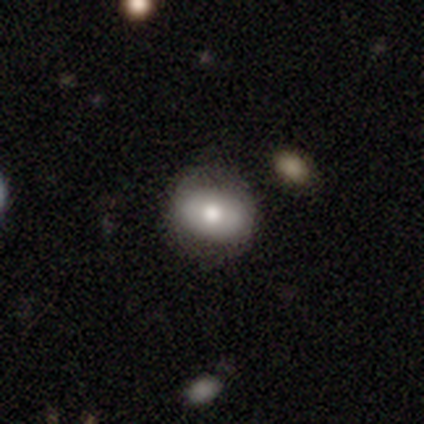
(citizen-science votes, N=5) smooth 100%, featured or disk 0%, star or artifact 0%. Down the decision tree: how rounded — in between (60%); merging — none (60%).